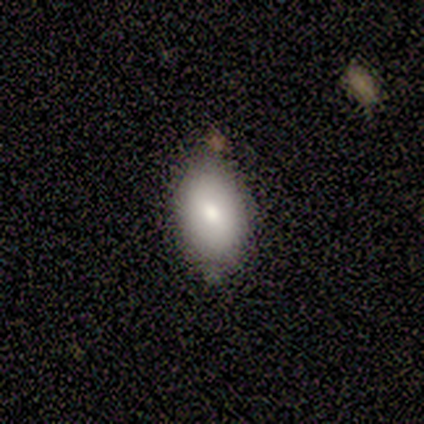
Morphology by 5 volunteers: Smooth or featured? smooth (40%, tied with star or artifact)
How rounded? in between (100%)
Merging? none (67%)